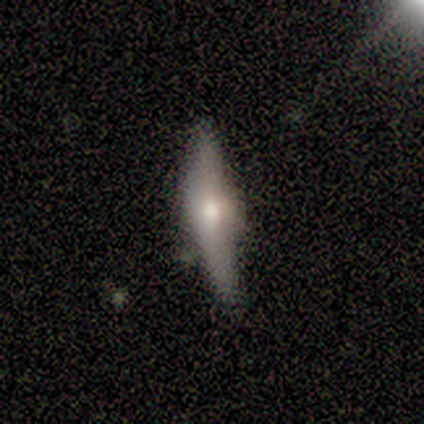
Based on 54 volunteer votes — A featured or disk galaxy (65%) viewed edge-on (94%) with a rounded central bulge (67%).

Vote fractions:
- Smooth or featured? featured or disk: 65% / smooth: 33% / star or artifact: 2%
- Edge-on disk? yes: 94% / no: 6%
- Edge-on bulge? rounded: 67% / boxy: 27% / none: 6%
- Merging? none: 62% / minor disturbance: 30% / major disturbance: 4% / merger: 4%